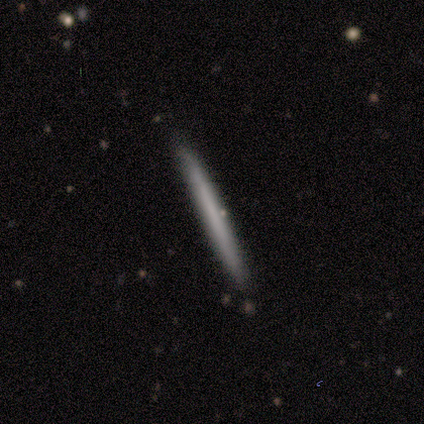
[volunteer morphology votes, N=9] smooth_or_featured: featured or disk (p=0.78) [alt: smooth p=0.22]
disk_edge_on: yes (p=1.00)
edge_on_bulge: none (p=1.00)
merging: none (p=1.00)